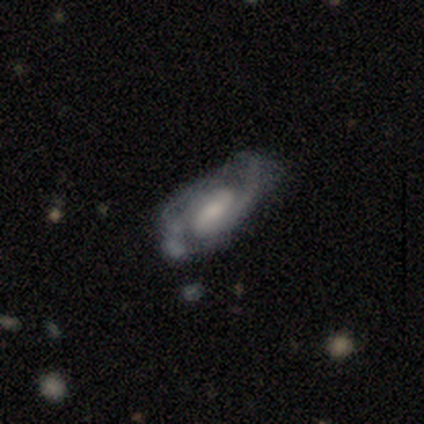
smooth-or-featured: featured or disk: 89% | smooth: 11% | star or artifact: 0%
  disk-edge-on: no: 100% | yes: 0%
    bar: no: 50% | weak: 44% | strong: 6%
    has-spiral-arms: yes: 97% | no: 3%
      spiral-winding: medium: 52% | tight: 33% | loose: 15%
      spiral-arm-count: 2: 85% | can't tell: 9% | 1: 3% | 3: 3% | 4: 0% | more than 4: 0%
    bulge-size: moderate: 35% | small: 29% | large: 21% | none: 15% | dominant: 0%
  merging: none: 34% | minor disturbance: 16% | major disturbance: 11% | merger: 3%